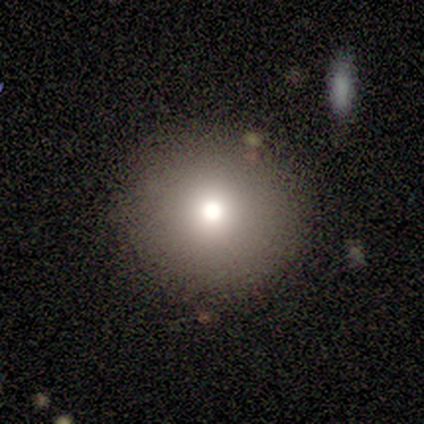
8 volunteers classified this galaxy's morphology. Smooth or featured?
  - smooth: 88% *
  - star or artifact: 12%
  - featured or disk: 0%
How rounded?
  - round: 100% *
  - in between: 0%
  - cigar-shaped: 0%
Merging?
  - none: 86% *
  - minor disturbance: 14%
  - major disturbance: 0%
  - merger: 0%